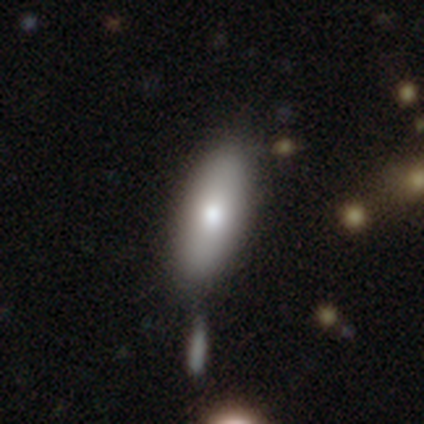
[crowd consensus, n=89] Morphology: type=smooth (81%); roundness=in between (79%); merging=none (71%).